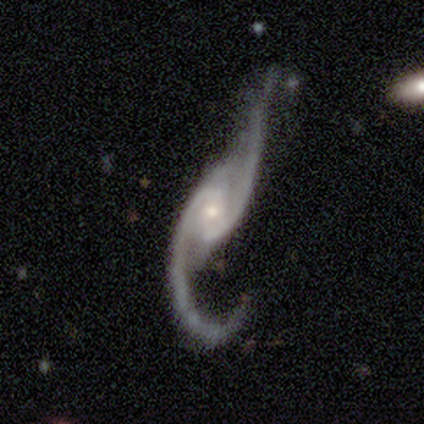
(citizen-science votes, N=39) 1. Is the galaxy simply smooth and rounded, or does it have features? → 95% featured or disk, 3% smooth, 3% star or artifact.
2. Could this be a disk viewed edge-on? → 95% no, 5% yes.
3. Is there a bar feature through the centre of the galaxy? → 46% weak, 40% no, 14% strong.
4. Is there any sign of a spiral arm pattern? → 100% yes, 0% no.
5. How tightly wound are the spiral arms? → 91% loose, 6% medium, 3% tight.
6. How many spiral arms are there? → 89% 2, 6% 1, 3% 3, 3% can't tell, 0% 4, 0% more than 4.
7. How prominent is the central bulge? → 46% moderate, 43% small, 6% large, 6% none, 0% dominant.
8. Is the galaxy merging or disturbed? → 53% major disturbance, 26% none, 16% minor disturbance, 5% merger.